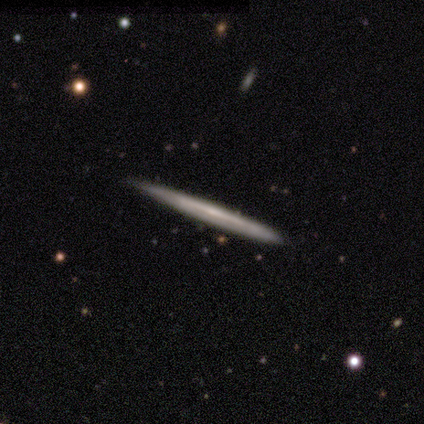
This appears to be a featured or disk galaxy (75%) viewed edge-on (100%) with a boxy central bulge (33%, tied with none and rounded). Merging: none (75%).